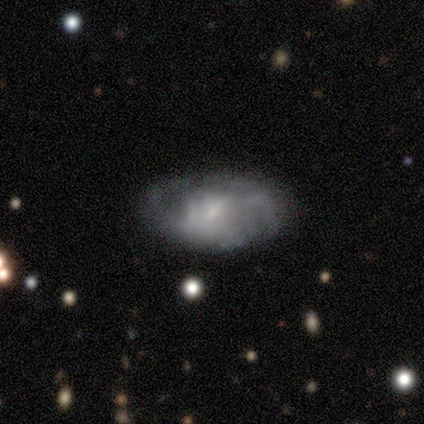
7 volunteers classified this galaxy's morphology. This is possibly a featured or disk galaxy (57%). It is likely not viewed edge-on (75%). Bar: likely no (67%). Spiral arm pattern: likely yes (67%). Spiral arm count: clearly 2 (100%). Spiral winding: clearly tight (100%). Central bulge: likely none (67%). Merging: clearly none (86%).